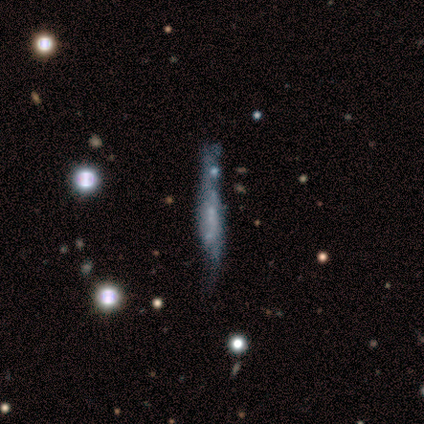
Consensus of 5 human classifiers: Morphology: type=smooth (40%, tied with featured or disk); roundness=in between (50%, tied with cigar-shaped); merging=major disturbance (50%).